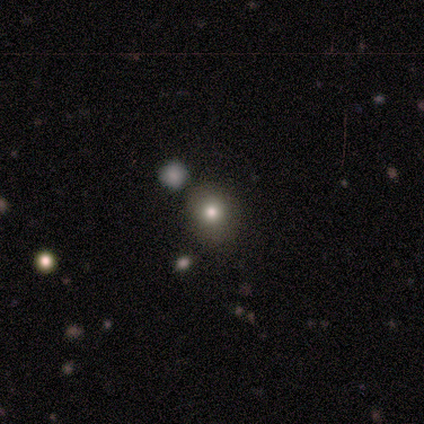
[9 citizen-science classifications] This appears to be a smooth galaxy with no disk features (78%) that is round (71%). Merging: none (88%).